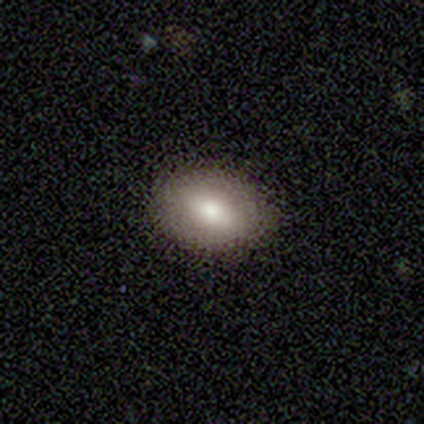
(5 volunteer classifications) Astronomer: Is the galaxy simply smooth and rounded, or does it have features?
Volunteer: smooth — 60% (runner-up: featured or disk, 40%).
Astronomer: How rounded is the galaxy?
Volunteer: in between — 100%.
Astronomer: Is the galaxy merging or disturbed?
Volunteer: none — 100%.